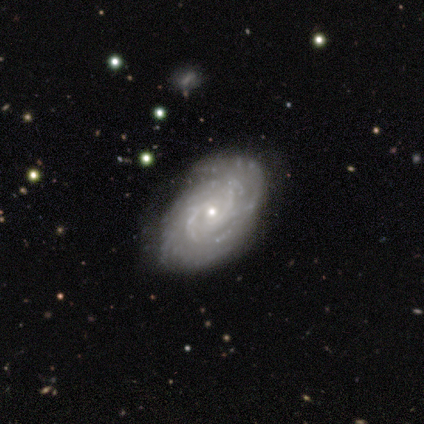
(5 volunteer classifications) Volunteers were most divided on "spiral arm count": 2: 40%, 3: 20%, more than 4: 20%, can't tell: 20%, 1: 0%, 4: 0%. More confident: smooth or featured — featured or disk (100%); edge-on disk — no (100%); bar — no (100%); spiral arms — yes (100%); spiral winding — tight (80%); merging — none (80%); bulge size — small (60%).